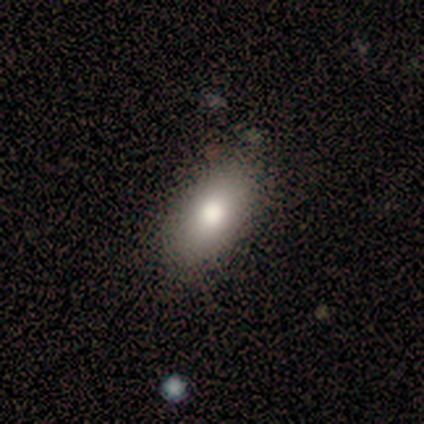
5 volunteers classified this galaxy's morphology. smooth_or_featured: smooth (p=1.00)
how_rounded: in between (p=1.00)
merging: none (p=0.80) [alt: minor disturbance p=0.20]